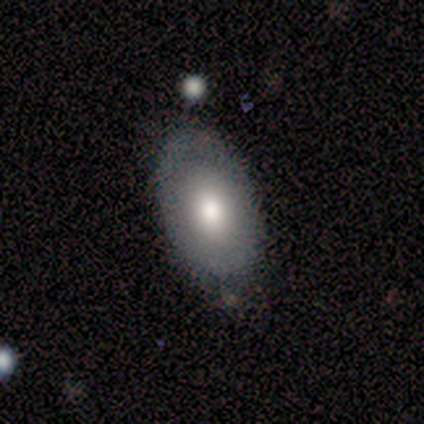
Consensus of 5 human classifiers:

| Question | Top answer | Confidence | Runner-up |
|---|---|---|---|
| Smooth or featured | smooth | 80% | featured or disk (20%) |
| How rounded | in between | 75% | round (25%) |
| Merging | none | 100% | — |